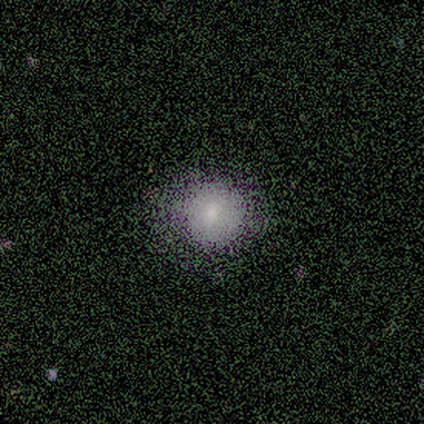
This is clearly a smooth galaxy (100%). How rounded: clearly round (100%). Merging: clearly none (80%).